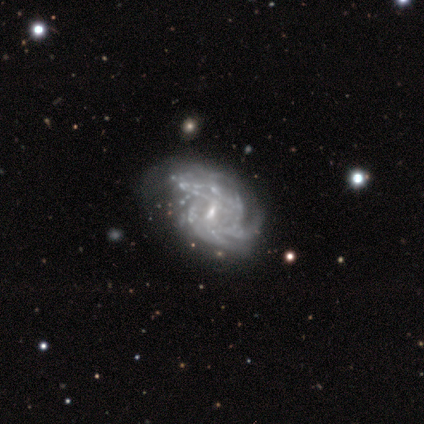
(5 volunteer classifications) Morphology: type=featured or disk (100%); edge-on=no (100%); bar=weak (40%, tied with no); spiral arms=yes (100%); winding=tight (80%); arm count=1 (20%, tied with 2, 3, 4 and can't tell); bulge=small (100%); merging=none (60%).